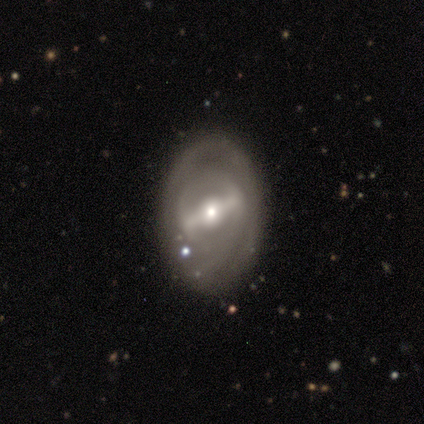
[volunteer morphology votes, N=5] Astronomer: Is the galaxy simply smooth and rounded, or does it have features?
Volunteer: featured or disk — 100%.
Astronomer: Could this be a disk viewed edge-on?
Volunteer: no — 100%.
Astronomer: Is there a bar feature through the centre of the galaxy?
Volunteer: strong — 100%.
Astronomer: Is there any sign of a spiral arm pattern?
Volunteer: no — 80%.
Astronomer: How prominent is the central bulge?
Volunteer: small — 60% (runner-up: moderate, 40%).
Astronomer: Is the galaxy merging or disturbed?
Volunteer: none — 100%.